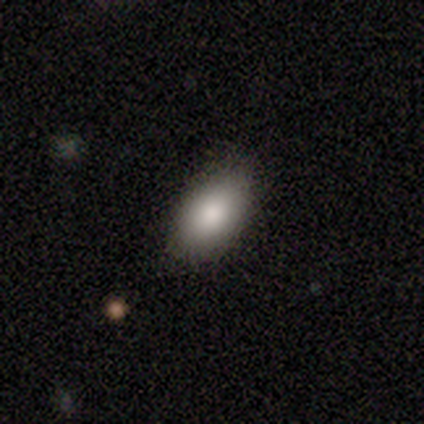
smooth_or_featured: smooth (p=0.85) [alt: featured or disk p=0.11]
how_rounded: in between (p=0.91) [alt: round p=0.07]
merging: none (p=0.84) [alt: minor disturbance p=0.16]